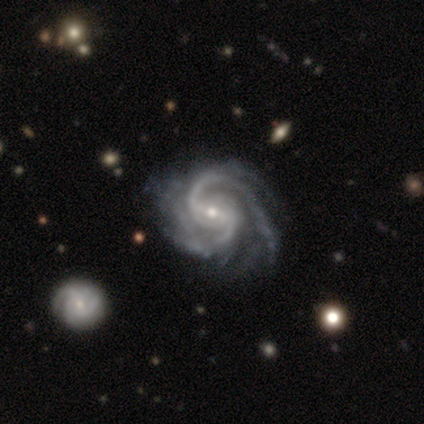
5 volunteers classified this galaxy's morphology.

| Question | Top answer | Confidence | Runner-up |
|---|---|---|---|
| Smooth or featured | featured or disk | 80% | star or artifact (20%) |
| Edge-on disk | no | 100% | — |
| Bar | strong | 75% | weak (25%) |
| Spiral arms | yes | 100% | — |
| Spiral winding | tight | 75% | medium (25%) |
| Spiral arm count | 2 | 75% | 3 (25%) |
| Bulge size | small | 50% | large (25%) |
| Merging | major disturbance | 75% | minor disturbance (25%) |